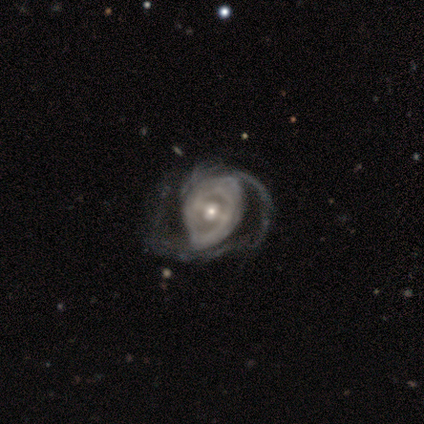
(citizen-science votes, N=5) This appears to be a featured or disk galaxy (100%) with a weak bar (60%), 1 (50%) medium (50%) spiral arms (80%) and a small central bulge (60%). Merging: major disturbance (80%).